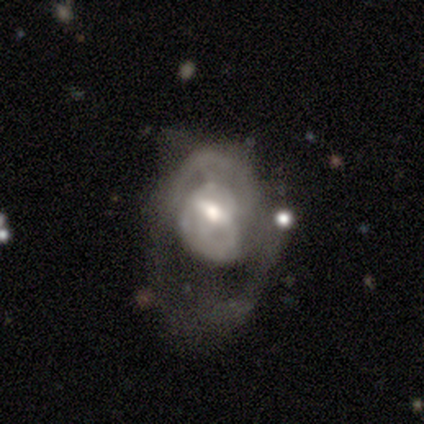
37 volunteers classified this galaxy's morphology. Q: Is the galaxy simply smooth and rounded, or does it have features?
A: featured or disk — 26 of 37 (70%).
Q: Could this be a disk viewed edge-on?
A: no — 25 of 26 (96%).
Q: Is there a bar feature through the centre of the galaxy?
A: weak — 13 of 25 (52%).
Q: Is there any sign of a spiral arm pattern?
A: yes — 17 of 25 (68%).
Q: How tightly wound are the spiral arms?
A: medium — 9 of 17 (53%).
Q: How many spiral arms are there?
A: can't tell — 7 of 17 (41%).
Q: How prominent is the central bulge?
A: moderate — 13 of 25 (52%).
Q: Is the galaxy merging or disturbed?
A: major disturbance — 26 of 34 (76%).